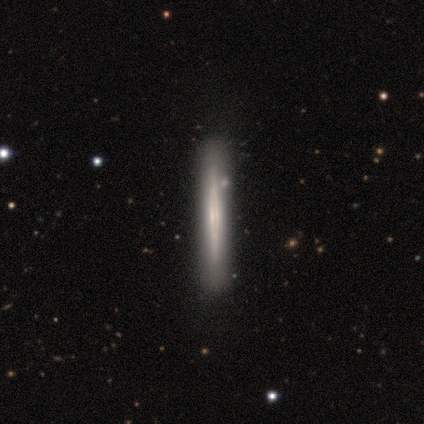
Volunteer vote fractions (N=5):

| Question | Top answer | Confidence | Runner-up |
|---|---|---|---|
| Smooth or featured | featured or disk | 60% | smooth (40%) |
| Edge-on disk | yes | 100% | — |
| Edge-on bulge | none | 67% | boxy (33%) |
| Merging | none | 100% | — |